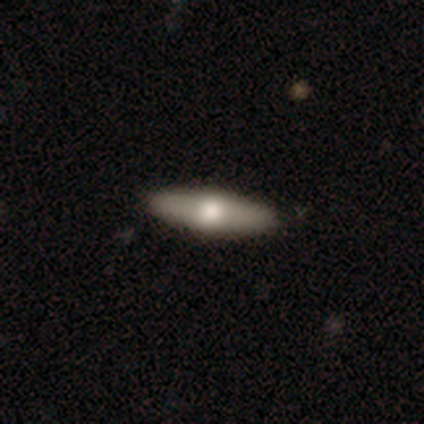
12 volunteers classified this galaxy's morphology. A smooth galaxy with no disk features (83%) that is cigar-shaped (80%).

Vote fractions:
- Smooth or featured? smooth: 83% / featured or disk: 17% / star or artifact: 0%
- How rounded? cigar-shaped: 80% / in between: 20% / round: 0%
- Merging? none: 100% / minor disturbance: 0% / major disturbance: 0% / merger: 0%